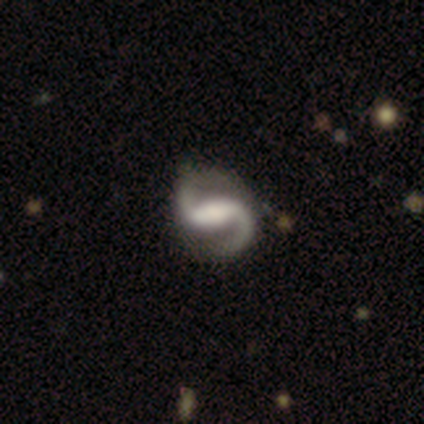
Q: Smooth or featured?
A: featured or disk (99%); runner-up: star or artifact (1%)
Q: Edge-on disk?
A: no (97%); runner-up: yes (3%)
Q: Bar?
A: strong (67%); runner-up: weak (20%)
Q: Spiral arms?
A: yes (99%); runner-up: no (1%)
Q: Spiral winding?
A: loose (62%); runner-up: medium (36%)
Q: Spiral arm count?
A: 2 (100%)
Q: Bulge size?
A: large (37%); runner-up: moderate (32%)
Q: Merging?
A: none (36%); runner-up: minor disturbance (10%)